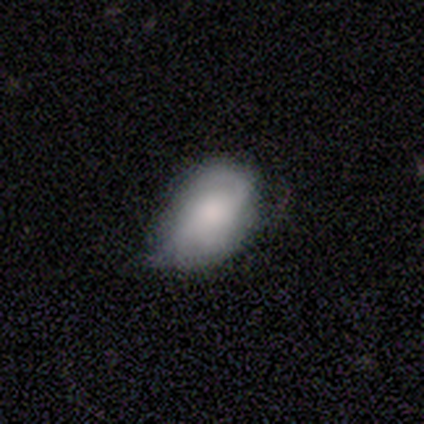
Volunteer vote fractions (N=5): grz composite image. It shows a smooth galaxy with no disk features (100%) that is in between round and cigar-shaped (80%). Merging: minor disturbance (60%).